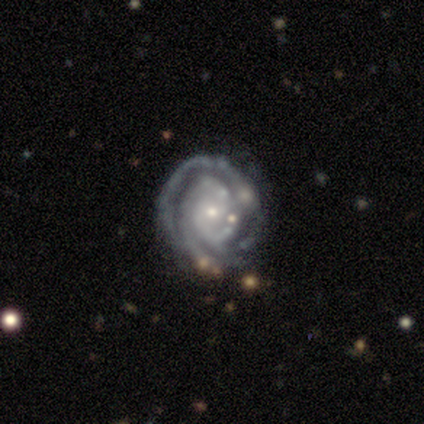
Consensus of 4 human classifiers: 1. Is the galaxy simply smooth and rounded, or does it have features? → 100% featured or disk, 0% smooth, 0% star or artifact.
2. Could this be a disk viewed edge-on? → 100% no, 0% yes.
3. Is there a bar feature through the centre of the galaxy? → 50% strong (tied), 50% no (tied), 0% weak.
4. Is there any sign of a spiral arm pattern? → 100% yes, 0% no.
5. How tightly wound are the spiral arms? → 100% tight, 0% medium, 0% loose.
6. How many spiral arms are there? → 50% 3, 25% 2, 25% 4, 0% 1, 0% more than 4, 0% can't tell.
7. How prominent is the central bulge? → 75% small, 25% large, 0% dominant, 0% moderate, 0% none.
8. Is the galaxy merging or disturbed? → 100% none, 0% minor disturbance, 0% major disturbance, 0% merger.